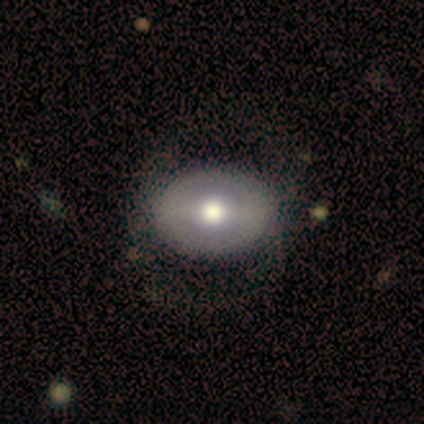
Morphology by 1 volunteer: smooth_or_featured: featured or disk (p=1.00)
disk_edge_on: no (p=1.00)
bar: weak (p=1.00)
has_spiral_arms: no (p=1.00)
bulge_size: moderate (p=1.00)
merging: none (p=1.00)